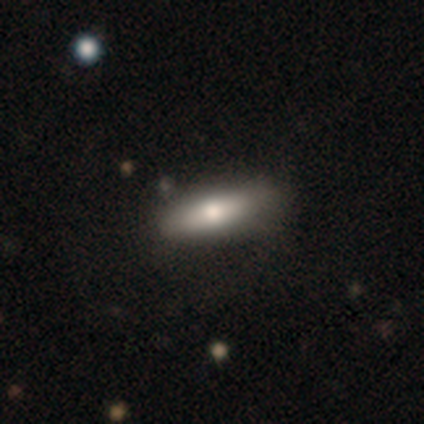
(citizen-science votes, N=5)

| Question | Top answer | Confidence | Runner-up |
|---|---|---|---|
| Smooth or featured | smooth | 60% | featured or disk (40%) |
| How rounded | in between | 67% | cigar-shaped (33%) |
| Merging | minor disturbance | 60% | none (40%) |